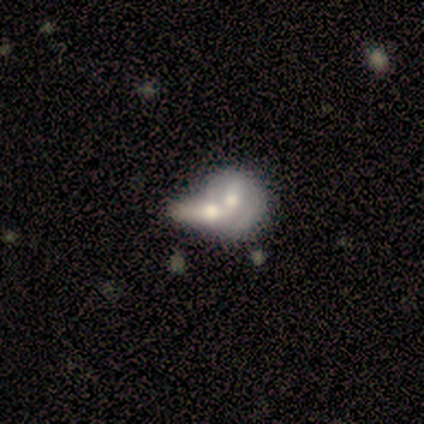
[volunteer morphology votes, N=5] A smooth galaxy with no disk features (60%) that is round (33%, tied with in between and cigar-shaped).

Vote fractions:
- Smooth or featured? smooth: 60% / featured or disk: 20% / star or artifact: 20%
- How rounded? round: 33% (tied) / in between: 33% (tied) / cigar-shaped: 33% (tied)
- Merging? merger: 100% / none: 0% / minor disturbance: 0% / major disturbance: 0%